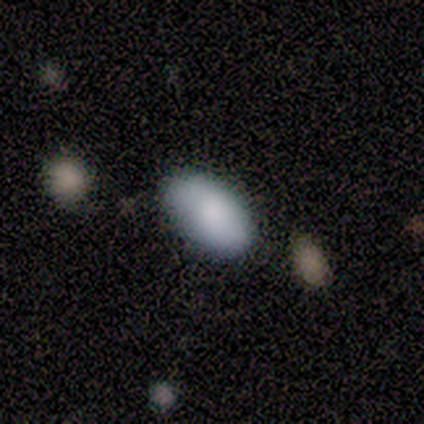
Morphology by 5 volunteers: smooth-or-featured: smooth: 100% | featured or disk: 0% | star or artifact: 0%
  how-rounded: in between: 100% | round: 0% | cigar-shaped: 0%
  merging: none: 80% | minor disturbance: 20% | major disturbance: 0% | merger: 0%